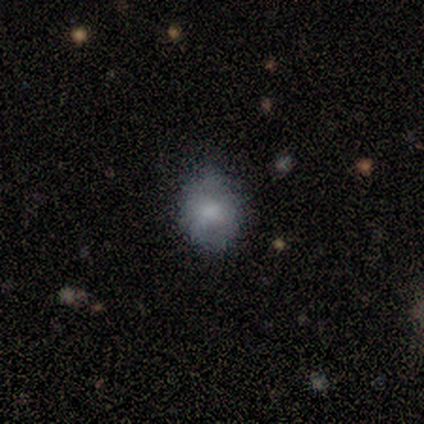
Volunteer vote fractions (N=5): Smooth or featured?
  - smooth: 80% *
  - star or artifact: 20%
  - featured or disk: 0%
How rounded?
  - round: 75% *
  - in between: 25%
  - cigar-shaped: 0%
Merging?
  - none: 100% *
  - minor disturbance: 0%
  - major disturbance: 0%
  - merger: 0%